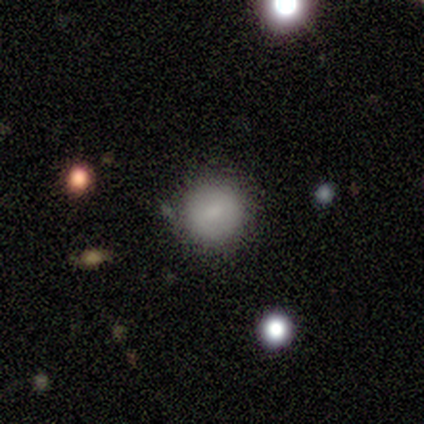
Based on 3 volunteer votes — smooth 67%, featured or disk 33%, star or artifact 0%. Down the decision tree: how rounded — round (100%); merging — none (67%).